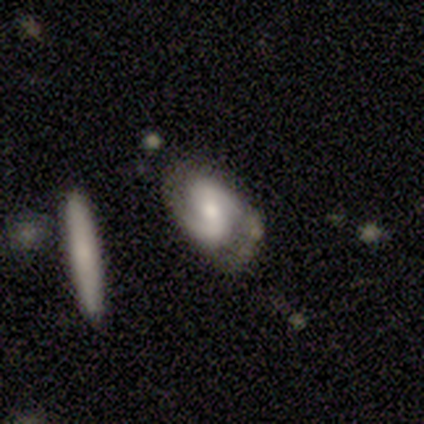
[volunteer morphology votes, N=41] Overall: featured or disk (85%). Edge-on disk: no (100%). Bar: weak (51%; no 37%). Spiral arms: yes (97%). Spiral arm count: 2 (97%). Spiral winding: medium (59%; tight 21%). Bulge size: moderate (49%; small 40%). Merging: none (54%; minor disturbance 28%).